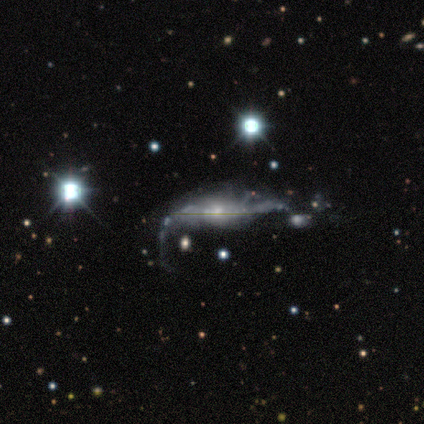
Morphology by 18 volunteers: smooth_or_featured: featured or disk (p=0.83) [alt: star or artifact p=0.11]
disk_edge_on: no (p=0.80) [alt: yes p=0.20]
bar: weak (p=0.42) [alt: no p=0.33]
has_spiral_arms: yes (p=0.58) [alt: no p=0.42]
spiral_winding: loose (p=1.00)
spiral_arm_count: 2 (p=0.43) [alt: can't tell p=0.29]
bulge_size: small (p=0.50) [alt: moderate p=0.42]
merging: none (p=0.31) [tied with: major disturbance p=0.31]